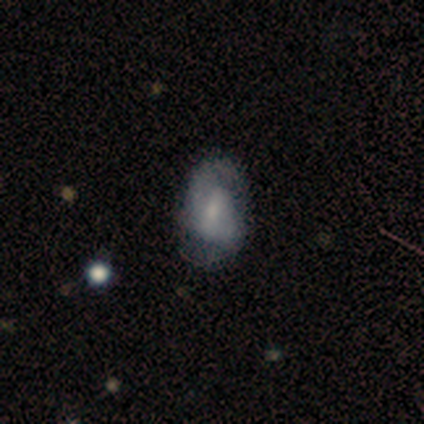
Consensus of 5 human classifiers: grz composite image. It shows a smooth galaxy with no disk features (80%) that is in between round and cigar-shaped (50%). Merging: none (80%).